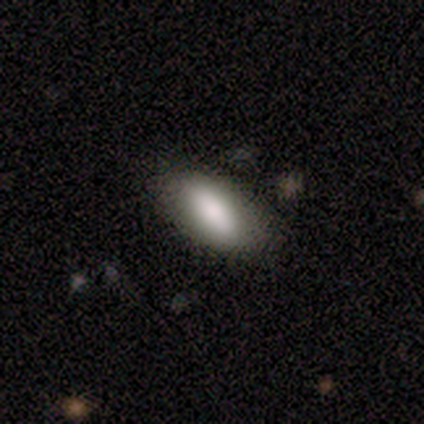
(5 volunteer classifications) smooth-or-featured: smooth: 60% | featured or disk: 40% | star or artifact: 0%
  how-rounded: in between: 67% | cigar-shaped: 33% | round: 0%
  merging: none: 60% | minor disturbance: 20% | major disturbance: 20% | merger: 0%